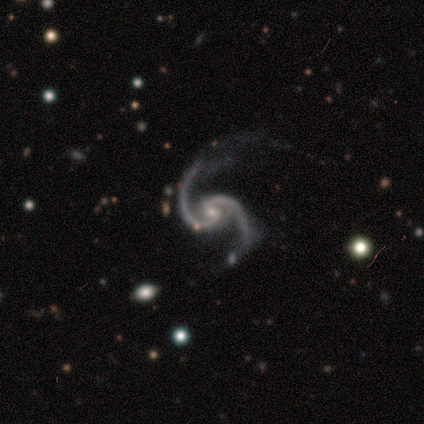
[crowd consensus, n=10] featured or disk 100%, smooth 0%, star or artifact 0%. Down the decision tree: edge-on disk — no (100%); bar — no (70%); spiral arms — yes (100%); spiral arm count — 2 (100%); spiral winding — medium (80%); bulge size — small (80%); merging — none (90%).